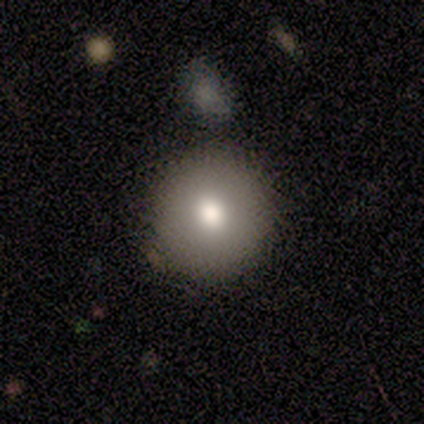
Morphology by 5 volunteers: smooth_or_featured: smooth (p=1.00)
how_rounded: round (p=1.00)
merging: none (p=1.00)